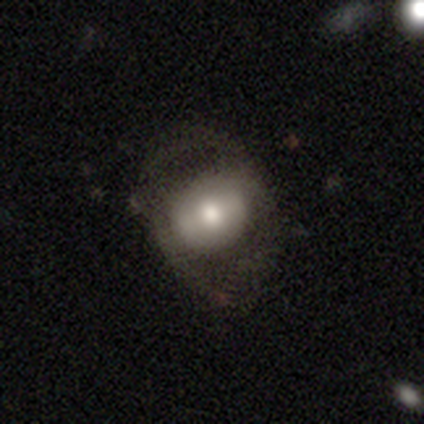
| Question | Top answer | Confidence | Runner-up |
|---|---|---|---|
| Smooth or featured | smooth | 52% | featured or disk (43%) |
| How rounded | round | 53% | in between (47%) |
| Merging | none | 55% | major disturbance (29%) |